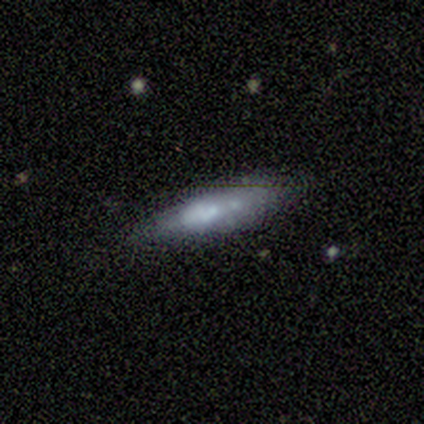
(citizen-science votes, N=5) A smooth galaxy with no disk features (80%) that is in between round and cigar-shaped (50%, tied with cigar-shaped).

Vote fractions:
- Smooth or featured? smooth: 80% / featured or disk: 20% / star or artifact: 0%
- How rounded? in between: 50% (tied) / cigar-shaped: 50% (tied) / round: 0%
- Merging? none: 60% / minor disturbance: 40% / major disturbance: 0% / merger: 0%